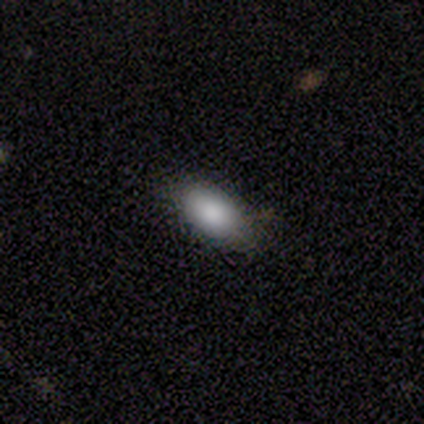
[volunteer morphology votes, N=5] Smooth or featured? smooth (60%)
How rounded? in between (100%)
Merging? none (75%)